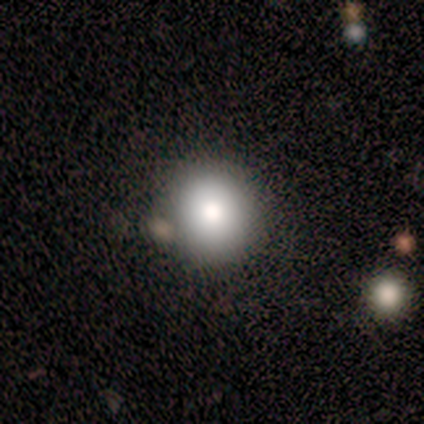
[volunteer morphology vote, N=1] Smooth or featured? 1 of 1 (100%) said featured or disk. Edge-on disk? 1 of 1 (100%) said no. Bar? 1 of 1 (100%) said no. Spiral arms? 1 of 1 (100%) said no. Bulge size? 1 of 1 (100%) said large. Merging? 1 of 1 (100%) said minor disturbance.